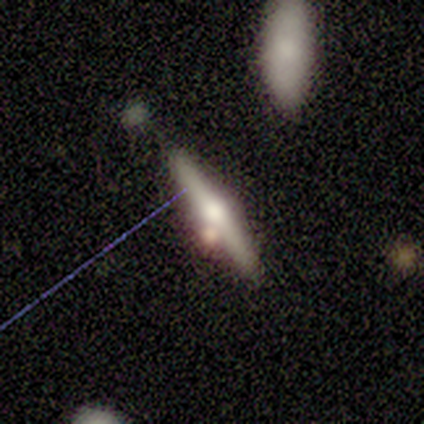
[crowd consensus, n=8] featured or disk 50%, smooth 38%, star or artifact 12%. Down the decision tree: edge-on disk — yes (100%); edge-on bulge — rounded (100%); merging — none (43%).